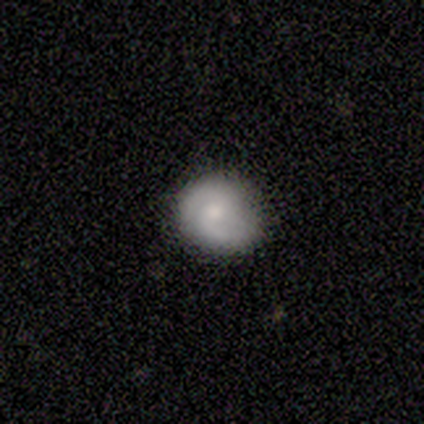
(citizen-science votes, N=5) Smooth or featured: featured or disk — 60% (smooth — 40%)
Edge-on disk: no — 100%
Bar: no — 67% (weak — 33%)
Spiral arms: yes — 100%
Spiral winding: tight — 67% (loose — 33%)
Spiral arm count: 2 — 67% (can't tell — 33%)
Bulge size: moderate — 67% (small — 33%)
Merging: minor disturbance — 60% (none — 40%)